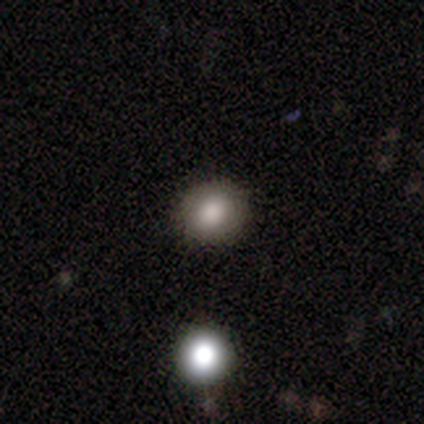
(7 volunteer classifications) Morphology: type=smooth (86%); roundness=round (67%); merging=none (100%).